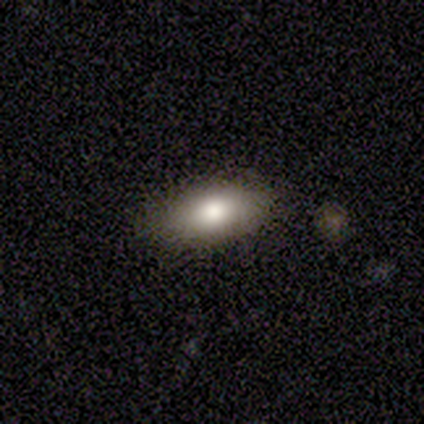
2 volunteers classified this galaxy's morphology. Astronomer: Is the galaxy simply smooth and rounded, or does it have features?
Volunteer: smooth — 50%, tied with star or artifact at 50%.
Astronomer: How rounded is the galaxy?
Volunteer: in between — 100%.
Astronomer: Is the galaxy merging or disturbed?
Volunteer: minor disturbance — 100%.